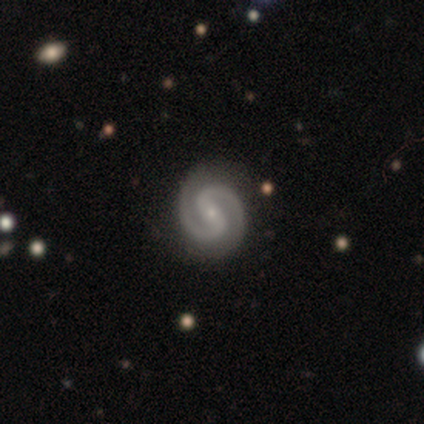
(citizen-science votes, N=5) Smooth or featured?
  - featured or disk: 100% *
  - smooth: 0%
  - star or artifact: 0%
Edge-on disk?
  - no: 100% *
  - yes: 0%
Bar?
  - strong: 80% *
  - weak: 20%
  - no: 0%
Spiral arms?
  - yes: 100% *
  - no: 0%
Spiral winding?
  - medium: 60% *
  - tight: 40%
  - loose: 0%
Spiral arm count?
  - 2: 100% *
  - 1: 0%
  - 3: 0%
  - 4: 0%
  - more than 4: 0%
  - can't tell: 0%
Bulge size?
  - small: 100% *
  - dominant: 0%
  - large: 0%
  - moderate: 0%
  - none: 0%
Merging?
  - none: 80% *
  - minor disturbance: 20%
  - major disturbance: 0%
  - merger: 0%